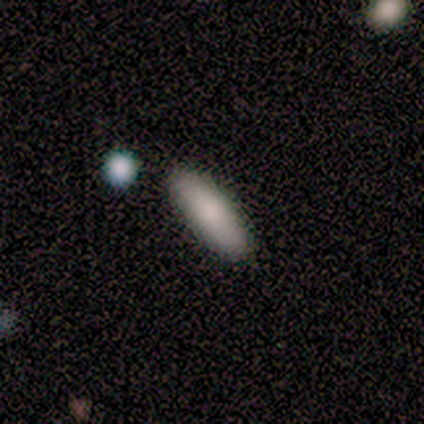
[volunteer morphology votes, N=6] A smooth galaxy with no disk features (100%) that is in between round and cigar-shaped (83%). Merging: none (100%).